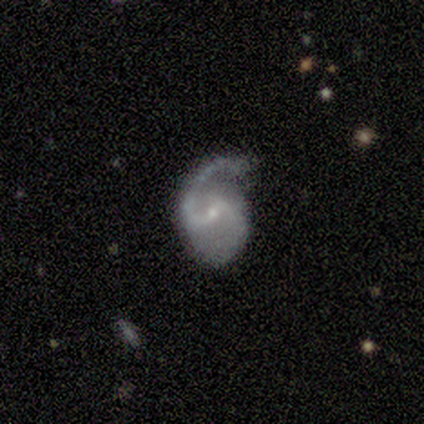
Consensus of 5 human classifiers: Smooth or featured? 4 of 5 (80%) said featured or disk. Edge-on disk? 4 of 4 (100%) said no. Bar? 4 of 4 (100%) said weak. Spiral arms? 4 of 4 (100%) said yes. Spiral winding? 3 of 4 (75%) said medium. Spiral arm count? 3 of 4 (75%) said 2. Bulge size? 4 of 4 (100%) said small. Merging? 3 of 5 (60%) said minor disturbance.